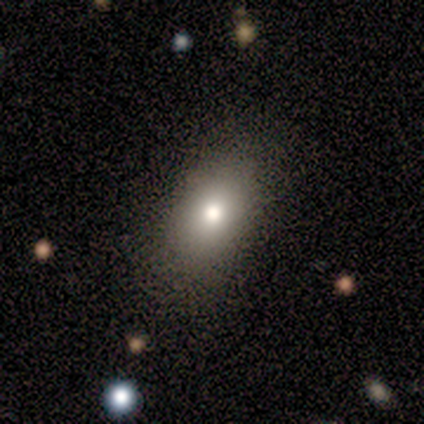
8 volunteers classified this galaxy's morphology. Smooth or featured? 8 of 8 (100%) said smooth. How rounded? 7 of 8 (88%) said in between. Merging? 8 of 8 (100%) said none.